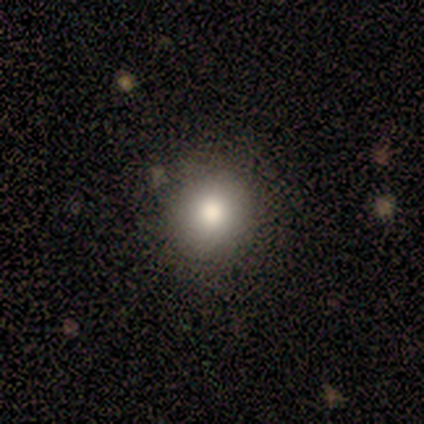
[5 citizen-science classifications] Volunteers were most divided on "merging": none: 75%, minor disturbance: 25%, major disturbance: 0%, merger: 0%. More confident: how rounded — round (100%); smooth or featured — smooth (80%).